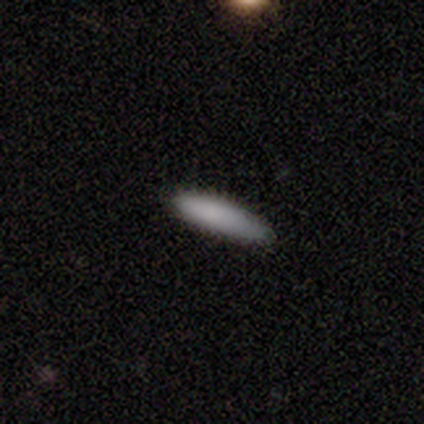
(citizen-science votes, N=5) Volunteers were most divided on "merging": none: 60%, minor disturbance: 40%, major disturbance: 0%, merger: 0%. More confident: smooth or featured — smooth (100%); how rounded — cigar-shaped (100%).